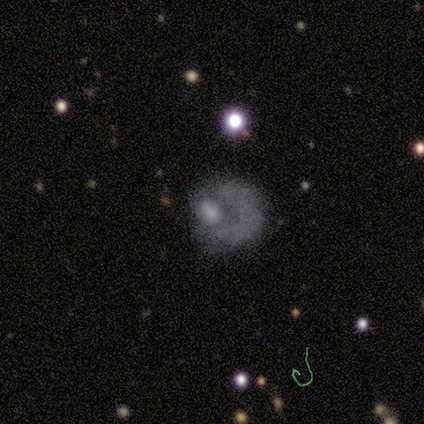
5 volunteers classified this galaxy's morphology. smooth 40% (tied), star or artifact 40% (tied), featured or disk 20%. Down the decision tree: how rounded — round (50%, tied with in between); merging — none (67%).